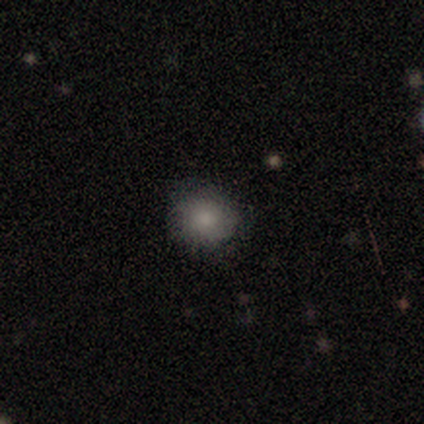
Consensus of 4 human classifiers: A smooth galaxy with no disk features (100%) that is round (100%). Merging: none (75%).